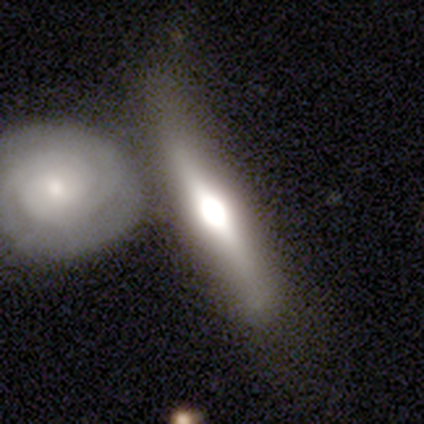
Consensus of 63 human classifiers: Smooth or featured? 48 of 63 (76%) said featured or disk. Edge-on disk? 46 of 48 (96%) said yes. Edge-on bulge? 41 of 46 (89%) said rounded. Merging? 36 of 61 (59%) said none.